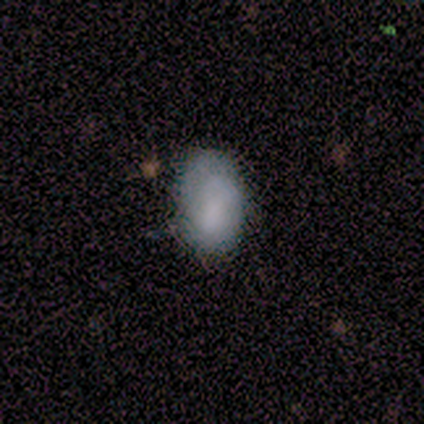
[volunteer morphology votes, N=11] Smooth or featured? smooth (55%)
How rounded? in between (100%)
Merging? none (70%)